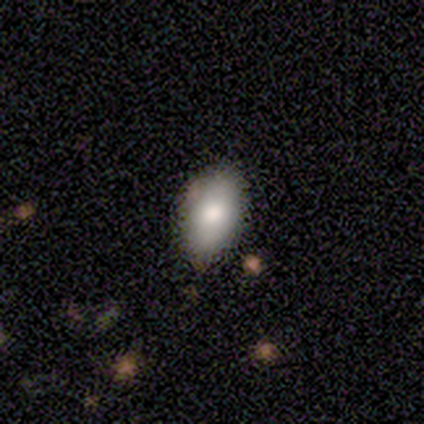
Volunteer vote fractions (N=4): Q: Smooth or featured?
A: smooth (50%); tied with: featured or disk (50%)
Q: How rounded?
A: in between (100%)
Q: Merging?
A: none (100%)